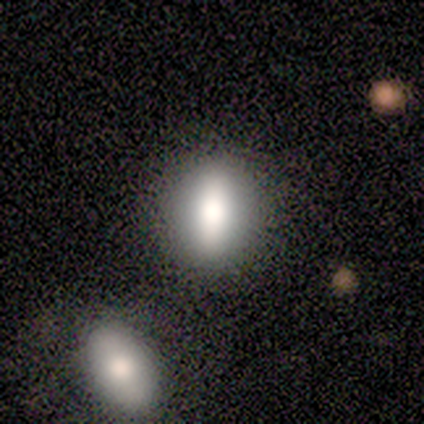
Morphology: type=smooth (80%); roundness=in between (75%); merging=none (100%).